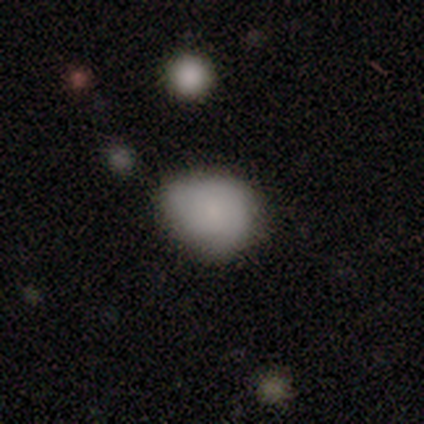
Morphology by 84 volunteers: Smooth or featured?
  - smooth: 73% *
  - featured or disk: 18%
  - star or artifact: 10%
How rounded?
  - in between: 57% *
  - round: 41%
  - cigar-shaped: 2%
Merging?
  - none: 46% *
  - minor disturbance: 41%
  - major disturbance: 11%
  - merger: 3%